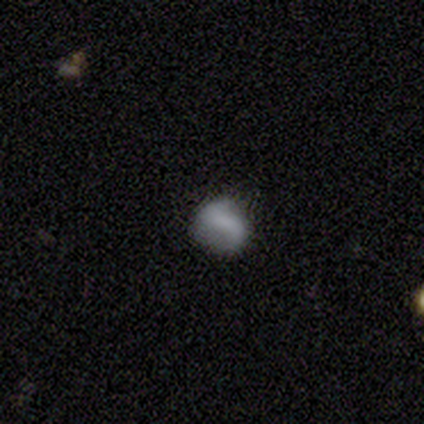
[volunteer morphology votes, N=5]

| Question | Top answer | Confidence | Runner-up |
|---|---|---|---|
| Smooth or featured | smooth | 40% | tied: featured or disk (40%) |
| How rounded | round | 50% | tied: in between (50%) |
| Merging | none | 50% | tied: minor disturbance (50%) |